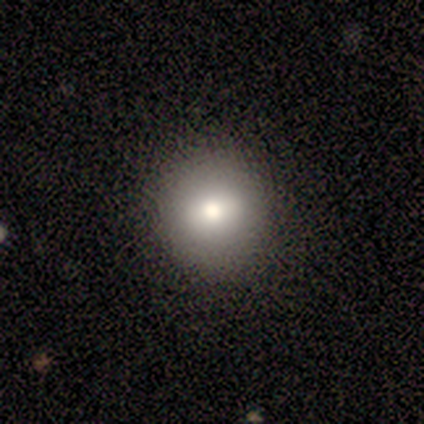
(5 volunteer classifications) Smooth or featured? smooth (40%, tied with featured or disk)
How rounded? round (100%)
Merging? none (100%)